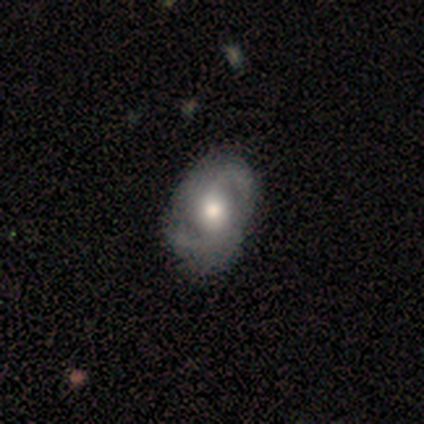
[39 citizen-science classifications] featured or disk 74%, smooth 23%, star or artifact 3%. Down the decision tree: edge-on disk — no (97%); bar — no (61%); spiral arms — yes (89%); spiral arm count — 2 (96%); spiral winding — medium (64%); bulge size — moderate (82%); merging — none (55%).